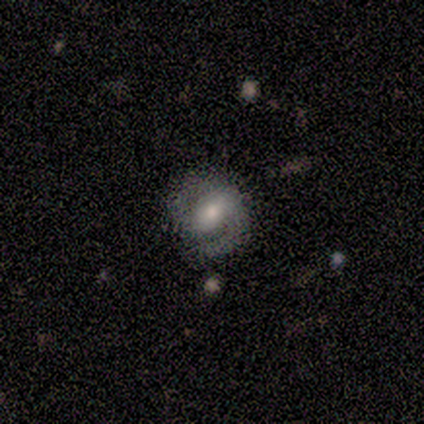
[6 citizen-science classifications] Smooth or featured: featured or disk — 100%
Edge-on disk: no — 100%
Bar: strong — 67% (weak — 17%)
Spiral arms: yes — 100%
Spiral winding: medium — 67% (tight — 33%)
Spiral arm count: 2 — 83% (1 — 17%)
Bulge size: moderate — 67% (small — 33%)
Merging: none — 83% (minor disturbance — 17%)